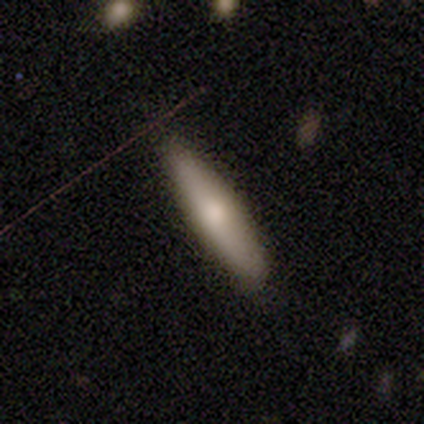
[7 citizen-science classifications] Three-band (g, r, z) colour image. It shows a smooth galaxy with no disk features (57%) that is in between round and cigar-shaped (50%, tied with cigar-shaped). Merging: none (86%).